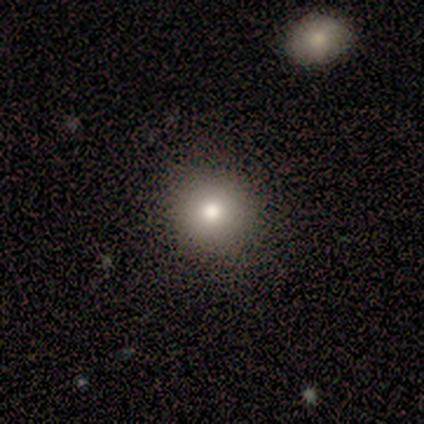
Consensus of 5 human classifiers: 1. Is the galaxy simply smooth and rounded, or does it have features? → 80% smooth, 20% star or artifact, 0% featured or disk.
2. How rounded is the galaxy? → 100% round, 0% in between, 0% cigar-shaped.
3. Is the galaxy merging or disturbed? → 100% none, 0% minor disturbance, 0% major disturbance, 0% merger.